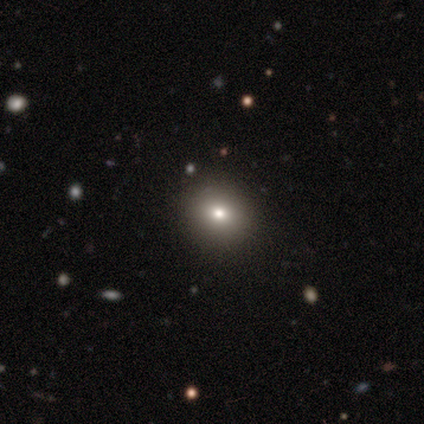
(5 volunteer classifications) This is likely a star or artifact rather than a galaxy (60%).